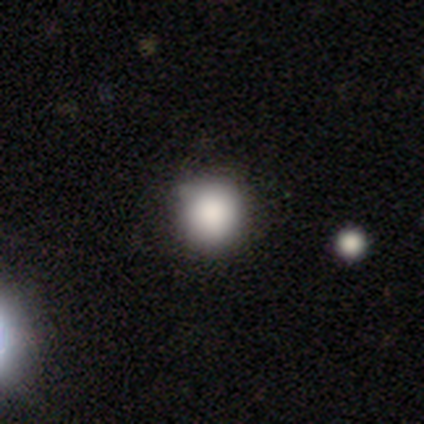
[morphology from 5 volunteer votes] A smooth galaxy with no disk features (100%) that is round (80%).

Vote fractions:
- Smooth or featured? smooth: 100% / featured or disk: 0% / star or artifact: 0%
- How rounded? round: 80% / in between: 20% / cigar-shaped: 0%
- Merging? none: 80% / minor disturbance: 20% / major disturbance: 0% / merger: 0%